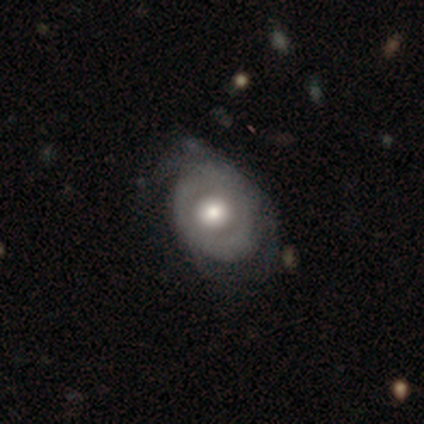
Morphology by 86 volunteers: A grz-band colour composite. It shows a featured or disk galaxy (63%) with no bar (84%), tight (46%) spiral arms (51%) and a moderate central bulge (57%). Merging: none (46%).